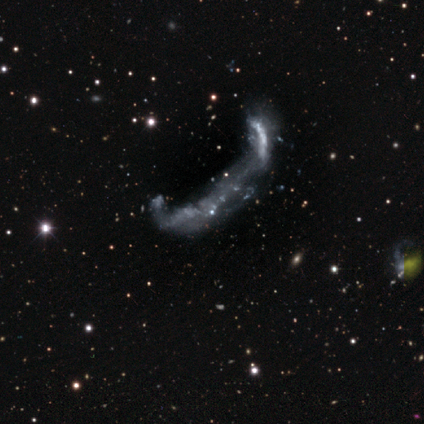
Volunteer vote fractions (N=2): Overall: featured or disk (100%). Edge-on disk: no (100%). Bar: no (100%). Spiral arms: yes (50%, tied with no). Spiral arm count: 1 (100%). Spiral winding: loose (100%). Bulge size: none (100%). Merging: major disturbance (50%, tied with merger).